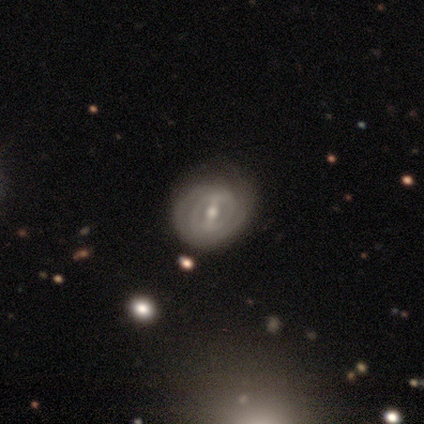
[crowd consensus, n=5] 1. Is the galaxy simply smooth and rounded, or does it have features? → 100% featured or disk, 0% smooth, 0% star or artifact.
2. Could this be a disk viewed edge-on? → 100% no, 0% yes.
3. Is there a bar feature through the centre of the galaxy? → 60% weak, 40% strong, 0% no.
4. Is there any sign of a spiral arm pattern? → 80% yes, 20% no.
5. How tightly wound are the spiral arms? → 75% tight, 25% medium, 0% loose.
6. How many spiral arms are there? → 75% can't tell, 25% 4, 0% 1, 0% 2, 0% 3, 0% more than 4.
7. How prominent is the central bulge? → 60% small, 40% moderate, 0% dominant, 0% large, 0% none.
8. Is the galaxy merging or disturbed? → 60% none, 40% minor disturbance, 0% major disturbance, 0% merger.